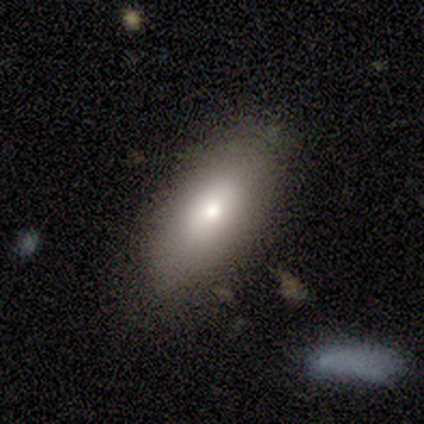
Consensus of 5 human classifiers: Smooth or featured? smooth (100%)
How rounded? in between (80%)
Merging? none (60%)